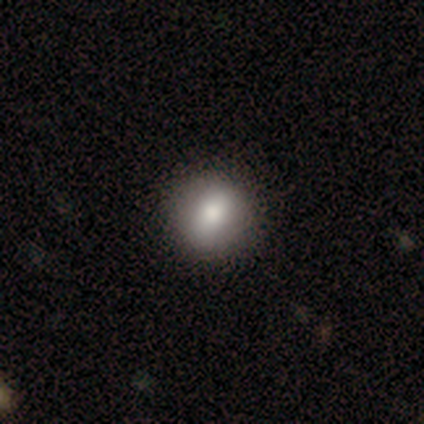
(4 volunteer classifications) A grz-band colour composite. It shows a smooth galaxy with no disk features (75%) that is round (67%). Merging: none (67%).